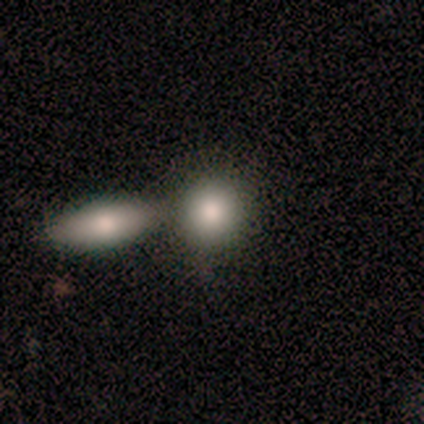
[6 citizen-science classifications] Q: Smooth or featured?
A: smooth (83%); runner-up: star or artifact (17%)
Q: How rounded?
A: round (60%); runner-up: in between (40%)
Q: Merging?
A: merger (60%); runner-up: none (20%)